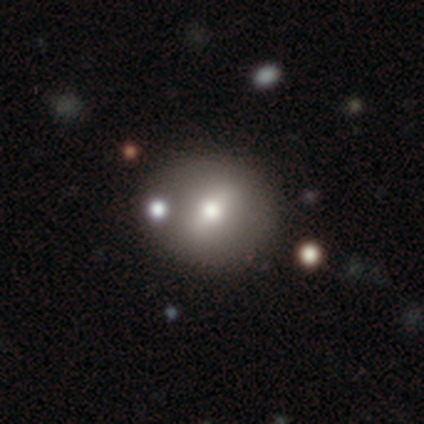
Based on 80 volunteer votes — This appears to be a smooth galaxy with no disk features (59%) that is round (81%). Merging: none (37%).